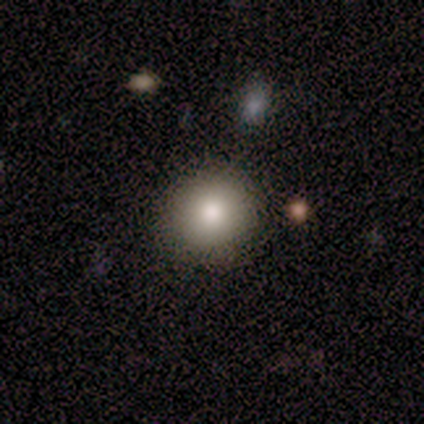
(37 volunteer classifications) Smooth or featured: smooth — 84% (featured or disk — 8%)
How rounded: round — 97% (in between — 3%)
Merging: none — 97% (minor disturbance — 3%)